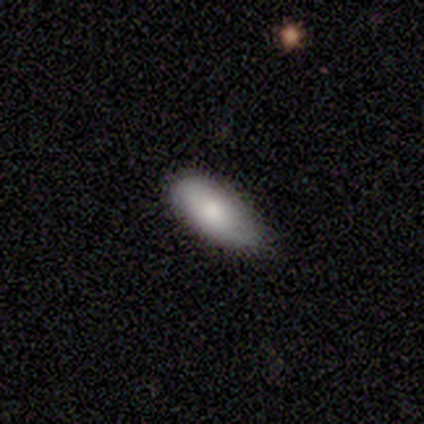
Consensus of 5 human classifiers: This appears to be a smooth galaxy with no disk features (100%) that is in between round and cigar-shaped (80%). Merging: minor disturbance (80%).